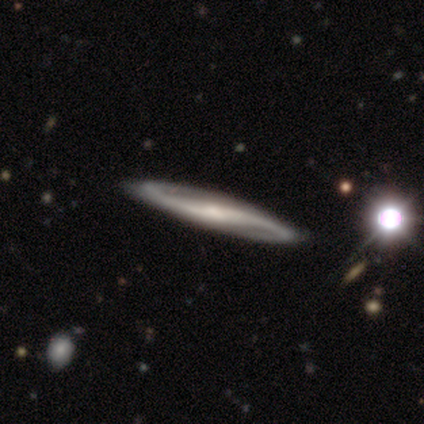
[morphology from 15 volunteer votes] smooth-or-featured: featured or disk: 87% | smooth: 7% | star or artifact: 7%
  disk-edge-on: no: 85% | yes: 15%
    bar: strong: 45% (tied) | weak: 45% (tied) | no: 9%
    has-spiral-arms: yes: 100% | no: 0%
      spiral-winding: loose: 55% | medium: 27% | tight: 18%
      spiral-arm-count: 2: 100% | 1: 0% | 3: 0% | 4: 0% | more than 4: 0% | can't tell: 0%
    bulge-size: small: 64% | moderate: 27% | large: 9% | dominant: 0% | none: 0%
  merging: none: 71% | minor disturbance: 21% | major disturbance: 7% | merger: 0%